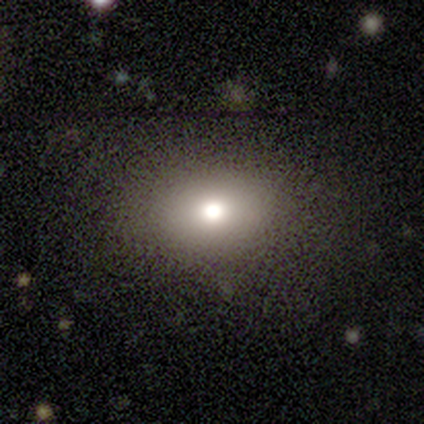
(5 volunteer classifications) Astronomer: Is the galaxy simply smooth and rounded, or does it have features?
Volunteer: smooth — 80%.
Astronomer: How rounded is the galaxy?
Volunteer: round — 50%, tied with in between at 50%.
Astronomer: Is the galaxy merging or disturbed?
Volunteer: none — 60% (runner-up: major disturbance, 40%).